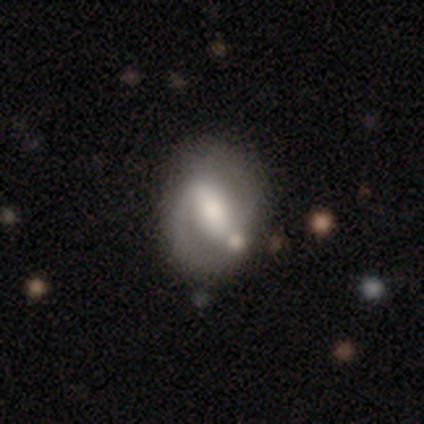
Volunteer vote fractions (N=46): Smooth or featured? featured or disk (63%)
Edge-on disk? no (97%)
Bar? strong (46%)
Spiral arms? yes (79%)
Spiral winding? medium (64%)
Spiral arm count? 2 (77%)
Bulge size? moderate (57%)
Merging? none (68%)